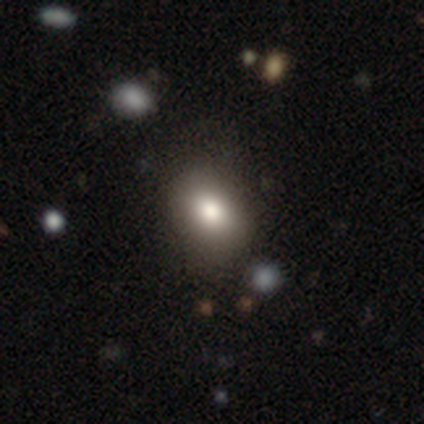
smooth_or_featured: smooth (p=0.80) [alt: star or artifact p=0.20]
how_rounded: in between (p=0.75) [alt: round p=0.25]
merging: none (p=1.00)